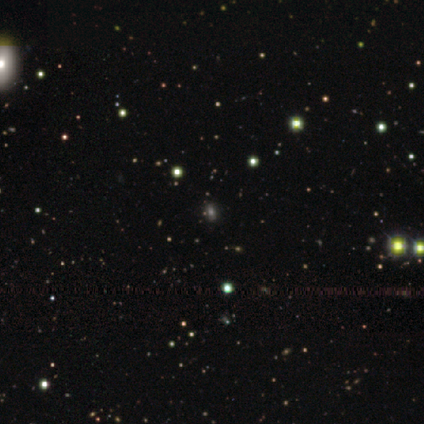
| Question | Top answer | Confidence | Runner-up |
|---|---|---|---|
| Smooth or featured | star or artifact | 46% | smooth (44%) |